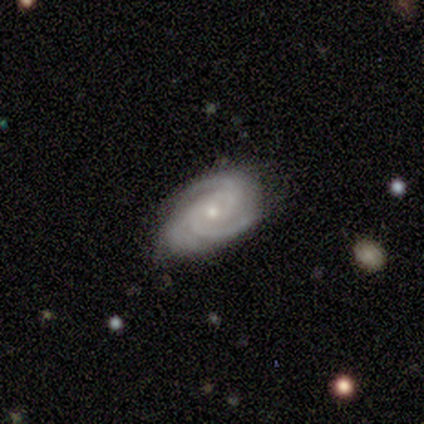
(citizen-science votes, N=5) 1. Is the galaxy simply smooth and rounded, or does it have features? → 100% featured or disk, 0% smooth, 0% star or artifact.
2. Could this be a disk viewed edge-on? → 100% no, 0% yes.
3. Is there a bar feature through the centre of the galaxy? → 80% no, 20% weak, 0% strong.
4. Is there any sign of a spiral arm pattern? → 100% yes, 0% no.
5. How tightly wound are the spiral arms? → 60% tight, 40% medium, 0% loose.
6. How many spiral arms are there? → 40% 3, 20% 2, 20% 4, 20% can't tell, 0% 1, 0% more than 4.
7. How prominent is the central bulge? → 60% small, 40% moderate, 0% dominant, 0% large, 0% none.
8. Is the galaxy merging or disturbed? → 60% none, 20% minor disturbance, 20% major disturbance, 0% merger.